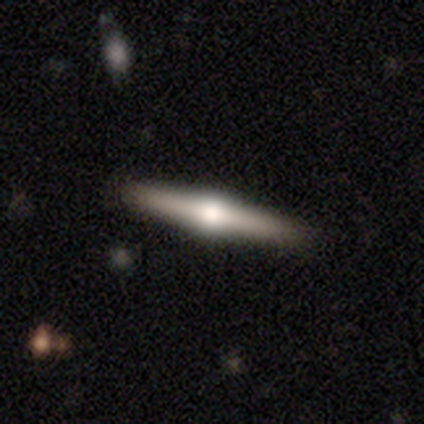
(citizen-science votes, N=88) Smooth or featured: featured or disk — 76% (smooth — 19%)
Edge-on disk: yes — 100%
Edge-on bulge: rounded — 96% (boxy — 4%)
Merging: none — 92% (minor disturbance — 7%)